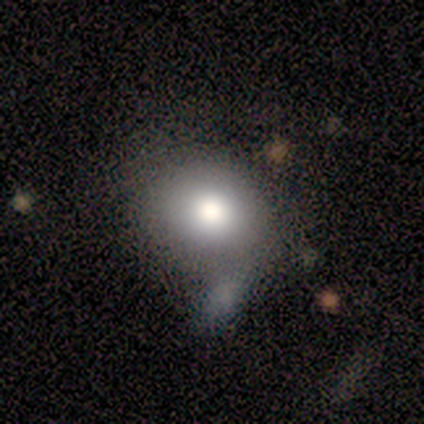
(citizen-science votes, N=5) A smooth galaxy with no disk features (80%) that is round (75%).

Vote fractions:
- Smooth or featured? smooth: 80% / featured or disk: 20% / star or artifact: 0%
- How rounded? round: 75% / in between: 25% / cigar-shaped: 0%
- Merging? major disturbance: 40% (tied) / merger: 40% (tied) / none: 20% / minor disturbance: 0%